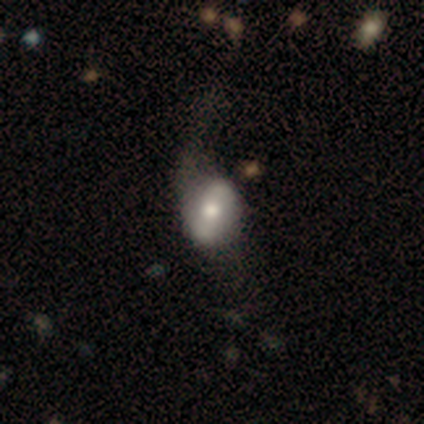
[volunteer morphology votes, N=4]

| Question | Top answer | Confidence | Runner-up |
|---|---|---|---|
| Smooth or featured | smooth | 75% | featured or disk (25%) |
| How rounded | in between | 67% | round (33%) |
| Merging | none | 50% | tied: major disturbance (50%) |